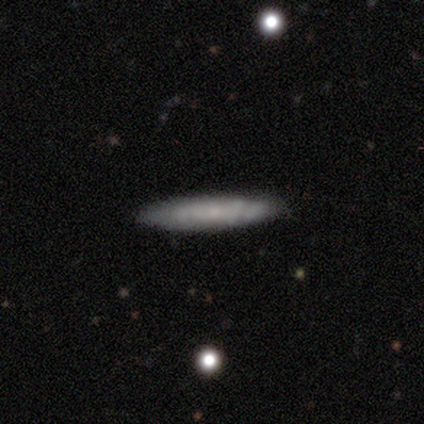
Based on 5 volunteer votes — smooth 80%, featured or disk 20%, star or artifact 0%. Down the decision tree: how rounded — cigar-shaped (100%); merging — none (100%).